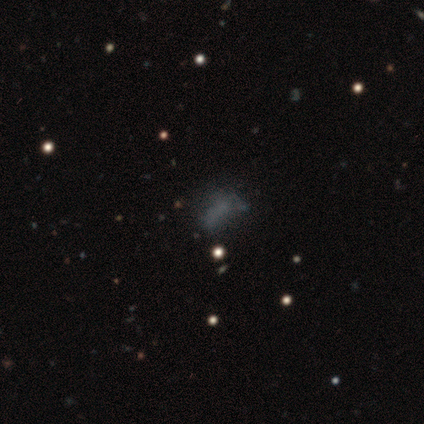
smooth_or_featured: smooth (p=0.38) [tied with: star or artifact p=0.38]
how_rounded: in between (p=0.80) [alt: round p=0.13]
merging: none (p=0.50) [alt: major disturbance p=0.29]